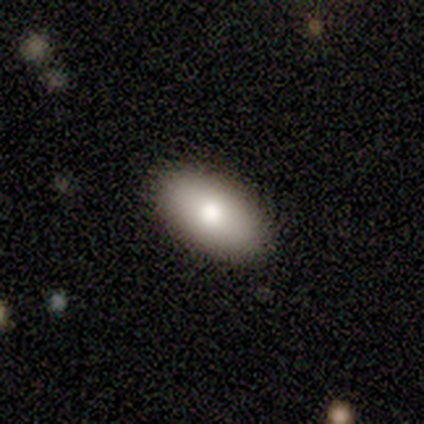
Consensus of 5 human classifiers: A smooth galaxy with no disk features (80%) that is in between round and cigar-shaped (100%).

Vote fractions:
- Smooth or featured? smooth: 80% / featured or disk: 20% / star or artifact: 0%
- How rounded? in between: 100% / round: 0% / cigar-shaped: 0%
- Merging? none: 100% / minor disturbance: 0% / major disturbance: 0% / merger: 0%